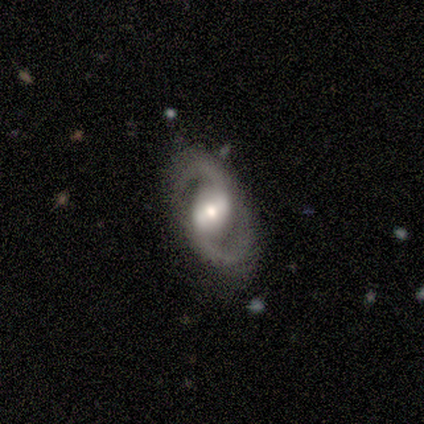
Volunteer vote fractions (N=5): A featured or disk galaxy (100%) with a weak bar (60%), 2 (100%) medium (60%) spiral arms (100%) and a moderate central bulge (100%). Merging: none (100%).